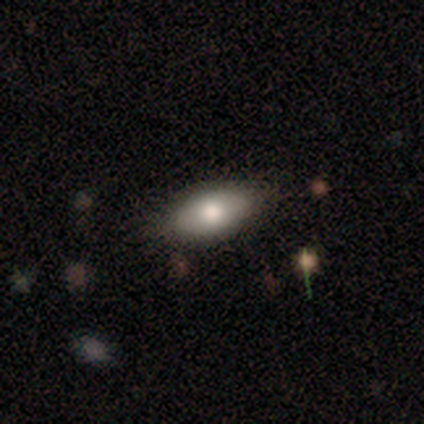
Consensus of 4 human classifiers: Smooth or featured? smooth (75%)
How rounded? in between (100%)
Merging? none (100%)